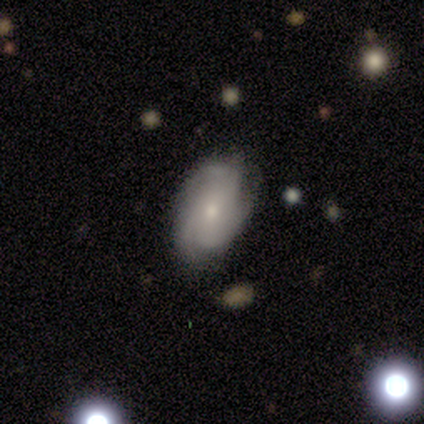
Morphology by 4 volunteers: Q: Smooth or featured?
A: featured or disk (75%); runner-up: star or artifact (25%)
Q: Edge-on disk?
A: no (100%)
Q: Bar?
A: no (100%)
Q: Spiral arms?
A: yes (67%); runner-up: no (33%)
Q: Spiral winding?
A: tight (100%)
Q: Spiral arm count?
A: 3 (100%)
Q: Bulge size?
A: small (67%); runner-up: moderate (33%)
Q: Merging?
A: none (100%)